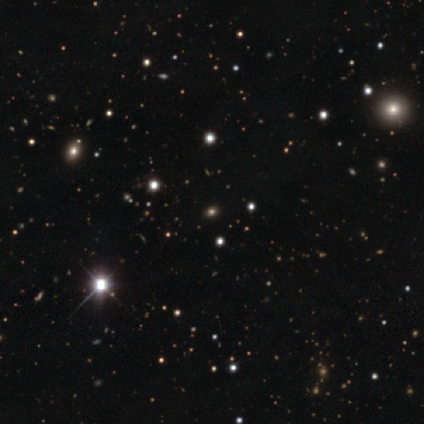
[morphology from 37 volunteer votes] Smooth or featured? star or artifact (70%)